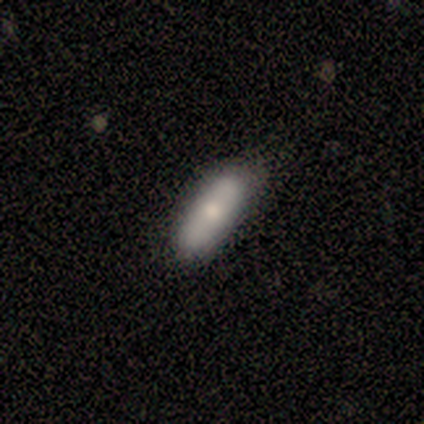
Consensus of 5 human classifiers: Q: Smooth or featured?
A: smooth (100%)
Q: How rounded?
A: cigar-shaped (80%); runner-up: in between (20%)
Q: Merging?
A: none (100%)